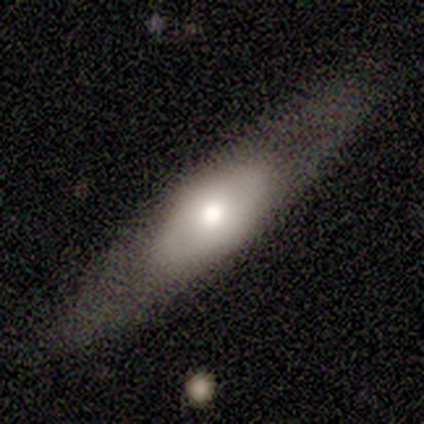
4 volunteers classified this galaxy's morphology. smooth 50% (tied), featured or disk 50% (tied), star or artifact 0%. Down the decision tree: how rounded — in between (100%); merging — major disturbance (75%).